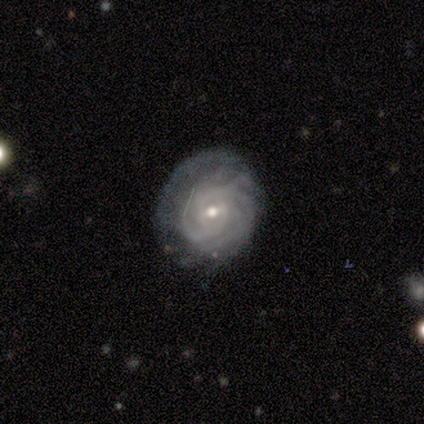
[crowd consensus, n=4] smooth_or_featured: featured or disk (p=1.00)
disk_edge_on: no (p=1.00)
bar: weak (p=0.75) [alt: no p=0.25]
has_spiral_arms: yes (p=1.00)
spiral_winding: tight (p=0.75) [alt: loose p=0.25]
spiral_arm_count: more than 4 (p=0.50) [alt: 2 p=0.25]
bulge_size: small (p=0.50) [alt: large p=0.25]
merging: none (p=0.50) [alt: minor disturbance p=0.25]